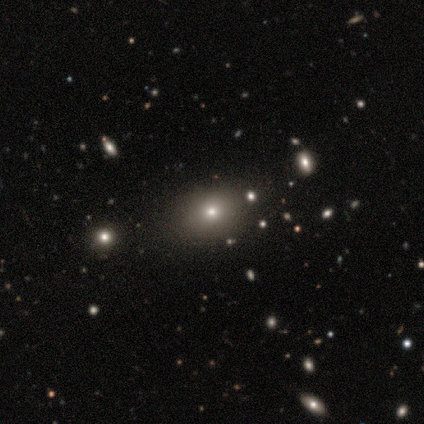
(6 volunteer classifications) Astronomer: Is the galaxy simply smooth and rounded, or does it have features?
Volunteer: smooth — 83%.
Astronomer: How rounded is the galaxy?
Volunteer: in between — 100%.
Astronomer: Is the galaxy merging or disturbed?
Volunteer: none — 80%.